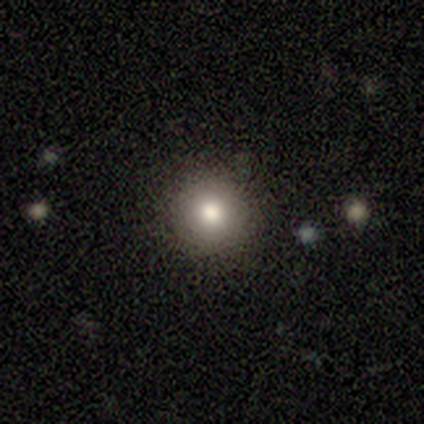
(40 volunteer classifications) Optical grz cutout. It shows a smooth galaxy with no disk features (68%) that is round (100%). Merging: none (88%).